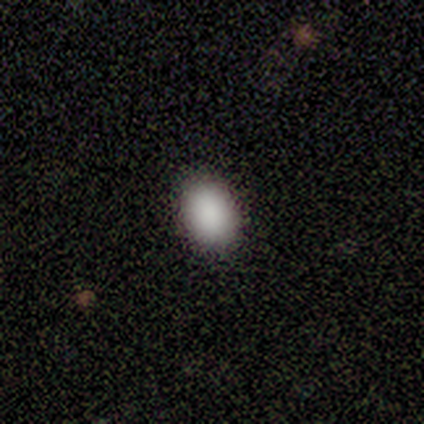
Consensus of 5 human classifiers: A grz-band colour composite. It shows a smooth galaxy with no disk features (100%) that is in between round and cigar-shaped (60%). Merging: none (100%).